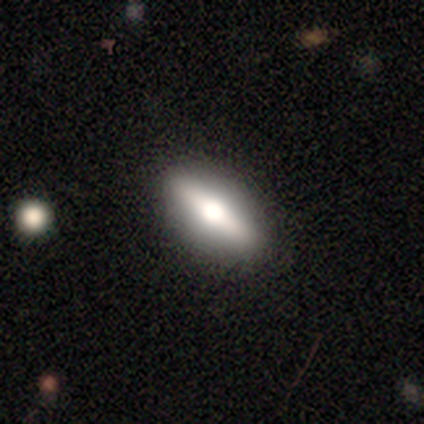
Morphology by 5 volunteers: Overall: featured or disk (40%, tied with star or artifact). Edge-on disk: yes (50%, tied with no). Edge-on bulge: rounded (100%). Merging: none (67%; minor disturbance 33%).